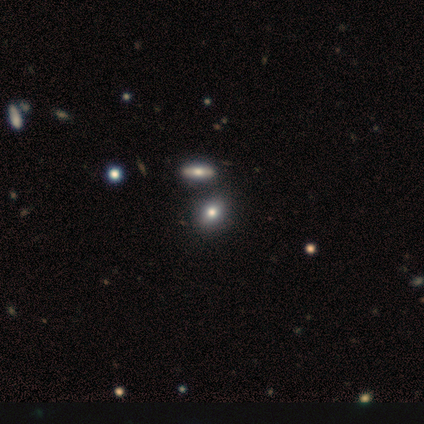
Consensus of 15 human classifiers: smooth_or_featured: smooth (p=0.67) [alt: featured or disk p=0.20]
how_rounded: in between (p=0.70) [alt: round p=0.30]
merging: none (p=0.69) [alt: minor disturbance p=0.15]